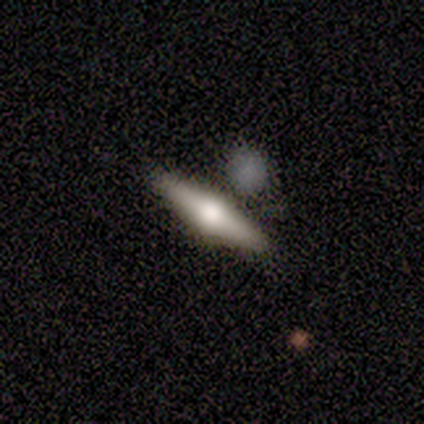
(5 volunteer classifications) smooth_or_featured: featured or disk (p=0.60) [alt: smooth p=0.40]
disk_edge_on: yes (p=1.00)
edge_on_bulge: rounded (p=1.00)
merging: none (p=0.60) [alt: minor disturbance p=0.40]